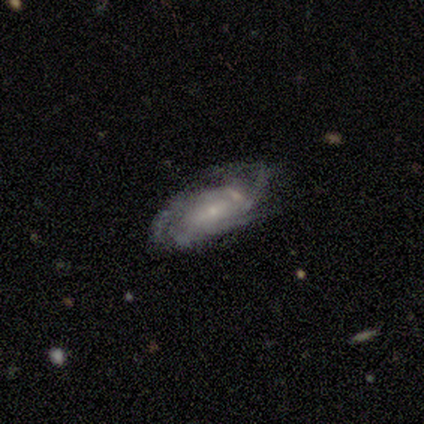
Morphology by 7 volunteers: This appears to be a featured or disk galaxy (86%) with a weak bar (60%), 3 (40%) tight (60%) spiral arms (100%) and a small central bulge (80%). Merging: none (57%).